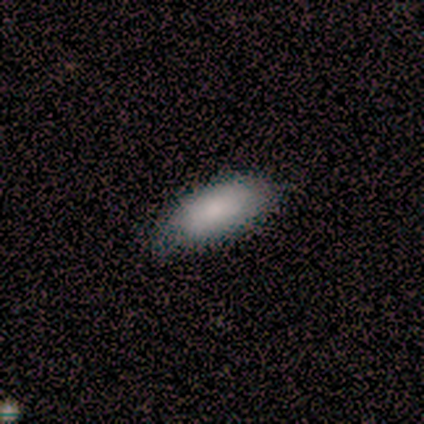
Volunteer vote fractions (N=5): smooth-or-featured: smooth: 80% | star or artifact: 20% | featured or disk: 0%
  how-rounded: in between: 50% (tied) | cigar-shaped: 50% (tied) | round: 0%
  merging: none: 75% | minor disturbance: 25% | major disturbance: 0% | merger: 0%